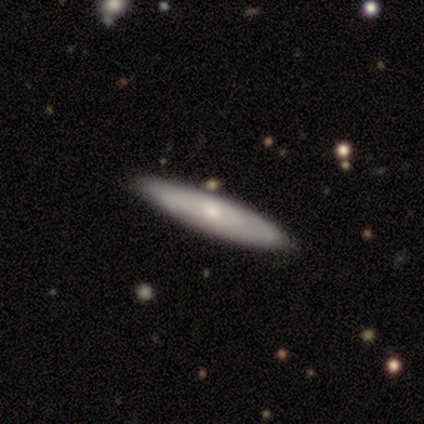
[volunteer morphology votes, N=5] type=featured or disk (60%); edge-on=yes (67%); edge-on bulge=boxy (50%, tied with none); merging=none (80%).